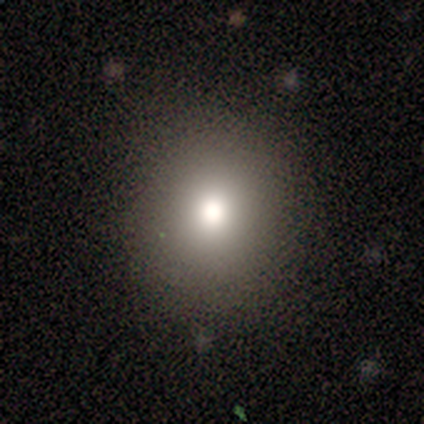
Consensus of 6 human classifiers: This is clearly a smooth galaxy (83%). How rounded: likely round (60%). Merging: likely none (67%).